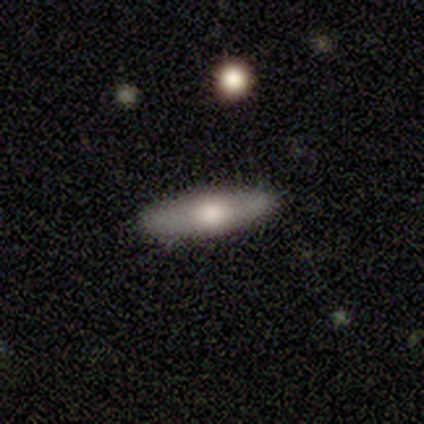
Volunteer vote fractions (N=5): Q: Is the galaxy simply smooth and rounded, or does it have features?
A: smooth — 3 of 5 (60%).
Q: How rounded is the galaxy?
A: cigar-shaped — 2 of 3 (67%).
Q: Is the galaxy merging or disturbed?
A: none — 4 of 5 (80%).